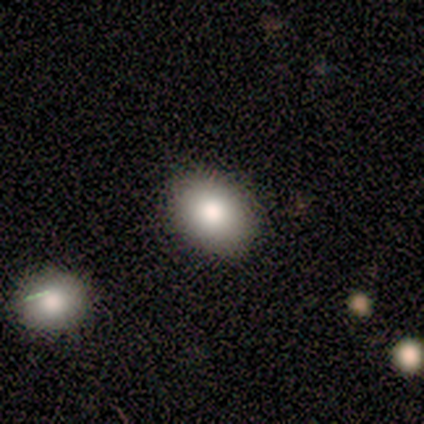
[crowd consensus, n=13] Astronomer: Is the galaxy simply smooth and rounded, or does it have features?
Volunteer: smooth — 85%.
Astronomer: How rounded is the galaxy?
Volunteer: in between — 64%.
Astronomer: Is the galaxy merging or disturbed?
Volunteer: none — 92%.